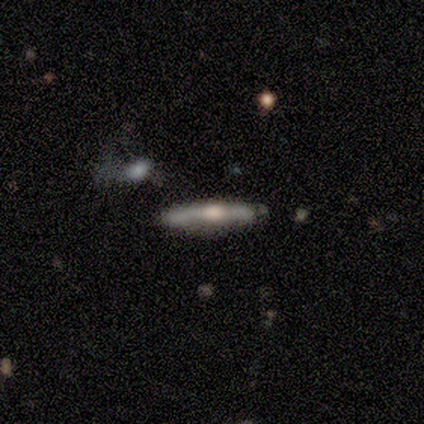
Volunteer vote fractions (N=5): A smooth galaxy with no disk features (60%) that is cigar-shaped (100%).

Vote fractions:
- Smooth or featured? smooth: 60% / featured or disk: 40% / star or artifact: 0%
- How rounded? cigar-shaped: 100% / round: 0% / in between: 0%
- Merging? none: 100% / minor disturbance: 0% / major disturbance: 0% / merger: 0%